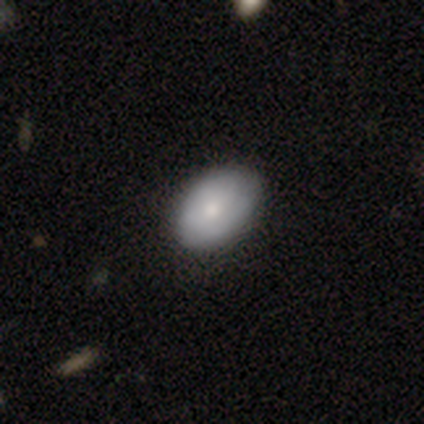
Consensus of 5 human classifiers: Volunteers were most divided on "smooth or featured": smooth: 80%, featured or disk: 20%, star or artifact: 0%. More confident: how rounded — in between (100%); merging — none (80%).